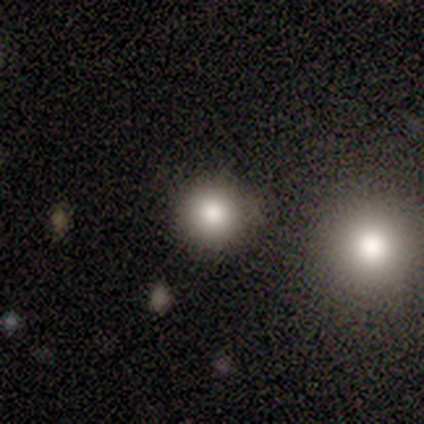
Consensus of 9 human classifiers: This is likely a smooth galaxy (78%). How rounded: clearly round (86%). Merging: clearly none (88%).